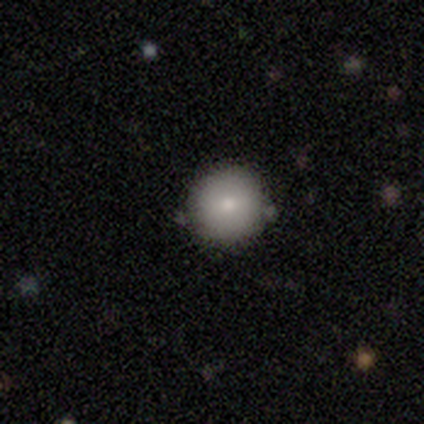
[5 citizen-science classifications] Morphology: type=smooth (60%); roundness=round (100%); merging=none (80%).